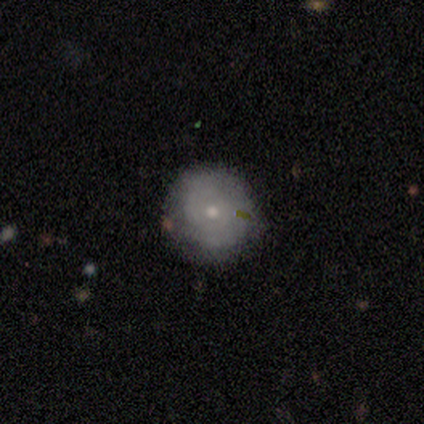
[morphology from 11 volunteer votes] A featured or disk galaxy (45%) with no bar (100%), tight (75%) spiral arms (80%) and a small central bulge (60%).

Vote fractions:
- Smooth or featured? featured or disk: 45% / smooth: 27% / star or artifact: 27%
- Edge-on disk? no: 100% / yes: 0%
- Bar? no: 100% / strong: 0% / weak: 0%
- Spiral arms? yes: 80% / no: 20%
- Spiral winding? tight: 75% / medium: 25% / loose: 0%
- Spiral arm count? can't tell: 100% / 1: 0% / 2: 0% / 3: 0% / 4: 0% / more than 4: 0%
- Bulge size? small: 60% / moderate: 40% / dominant: 0% / large: 0% / none: 0%
- Merging? none: 100% / minor disturbance: 0% / major disturbance: 0% / merger: 0%